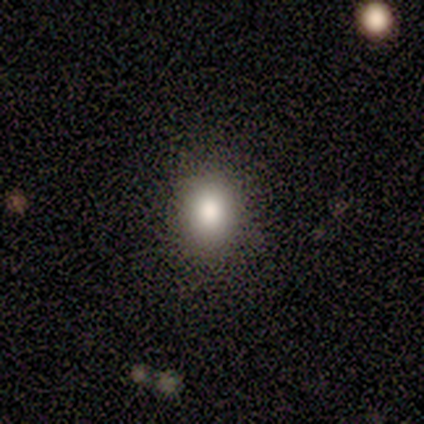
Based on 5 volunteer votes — A smooth galaxy with no disk features (100%) that is in between round and cigar-shaped (80%).

Vote fractions:
- Smooth or featured? smooth: 100% / featured or disk: 0% / star or artifact: 0%
- How rounded? in between: 80% / round: 20% / cigar-shaped: 0%
- Merging? none: 100% / minor disturbance: 0% / major disturbance: 0% / merger: 0%